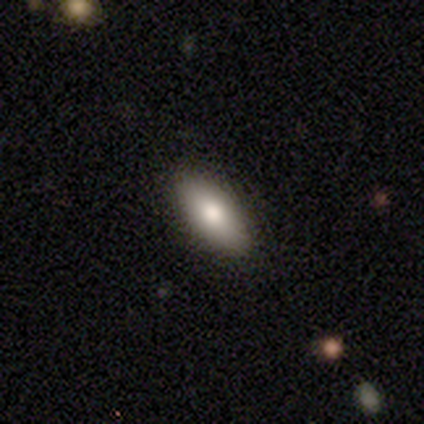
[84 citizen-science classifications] Smooth or featured: smooth — 81% (featured or disk — 13%)
How rounded: in between — 91% (cigar-shaped — 7%)
Merging: none — 87% (minor disturbance — 10%)